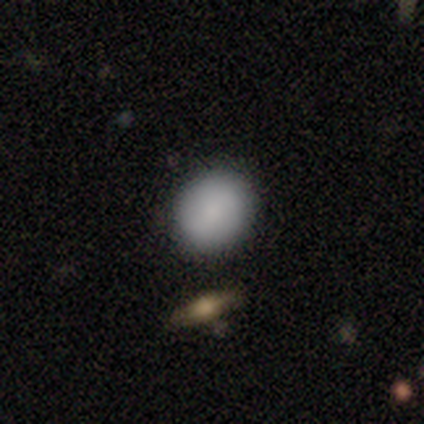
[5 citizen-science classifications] Smooth or featured?
  - smooth: 80% *
  - star or artifact: 20%
  - featured or disk: 0%
How rounded?
  - round: 100% *
  - in between: 0%
  - cigar-shaped: 0%
Merging?
  - none: 100% *
  - minor disturbance: 0%
  - major disturbance: 0%
  - merger: 0%